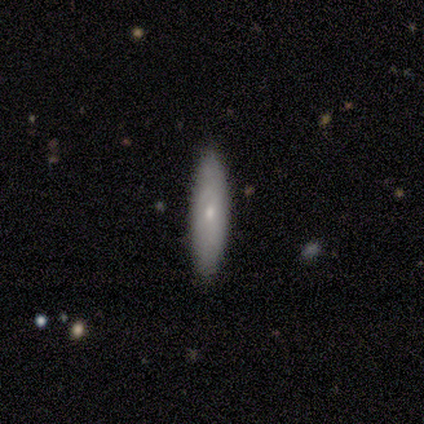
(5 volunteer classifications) Overall: smooth (60%; featured or disk 40%). How rounded: cigar-shaped (100%). Merging: none (60%; minor disturbance 40%).